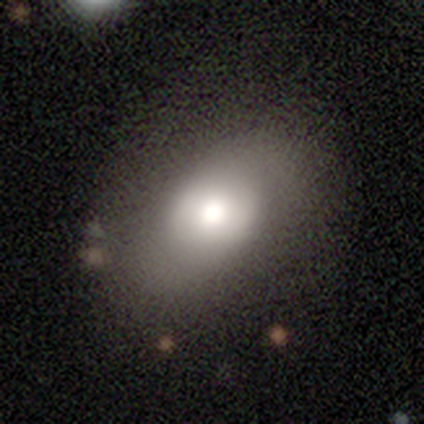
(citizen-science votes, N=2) Q: Smooth or featured?
A: smooth (100%)
Q: How rounded?
A: in between (100%)
Q: Merging?
A: none (50%); tied with: minor disturbance (50%)